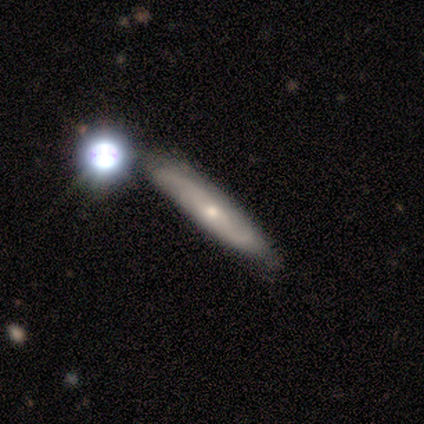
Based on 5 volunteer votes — Smooth or featured: featured or disk — 60% (smooth — 40%)
Edge-on disk: no — 67% (yes — 33%)
Bar: weak — 50% (tied with no — 50%)
Spiral arms: yes — 100%
Spiral winding: tight — 50% (tied with medium — 50%)
Spiral arm count: 2 — 100%
Bulge size: moderate — 50% (tied with small — 50%)
Merging: none — 40% (tied with minor disturbance — 40%)